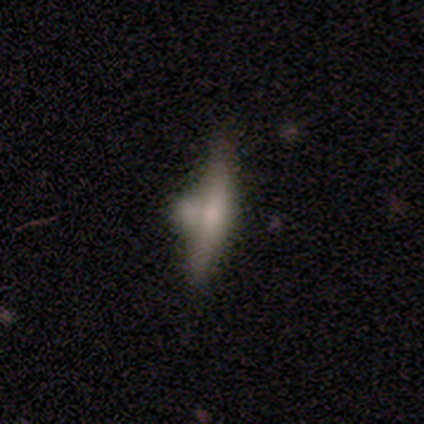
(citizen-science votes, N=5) Smooth or featured? featured or disk (40%, tied with star or artifact)
Edge-on disk? yes (100%)
Edge-on bulge? none (50%, tied with rounded)
Merging? none (33%, tied with major disturbance and merger)